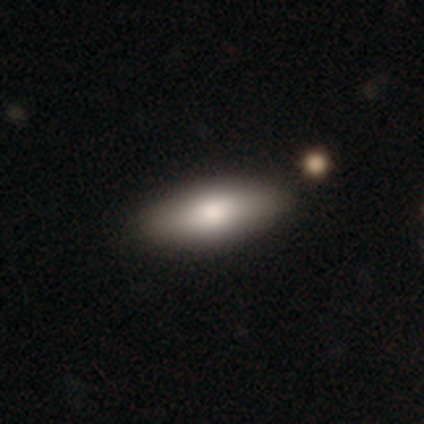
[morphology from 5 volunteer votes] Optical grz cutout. It shows a smooth galaxy with no disk features (60%) that is cigar-shaped (100%). Merging: none (50%, tied with minor disturbance).